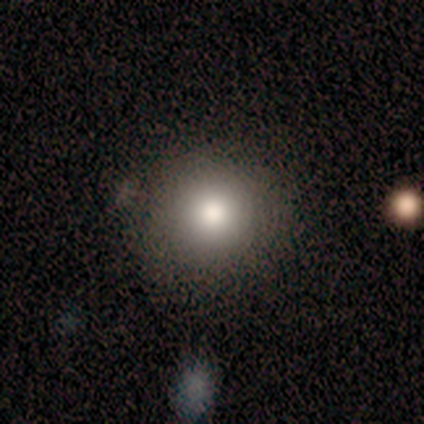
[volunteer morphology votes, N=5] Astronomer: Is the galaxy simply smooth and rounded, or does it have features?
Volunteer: smooth — 100%.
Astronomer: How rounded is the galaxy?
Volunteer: round — 100%.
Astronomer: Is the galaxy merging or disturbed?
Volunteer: none — 80%.